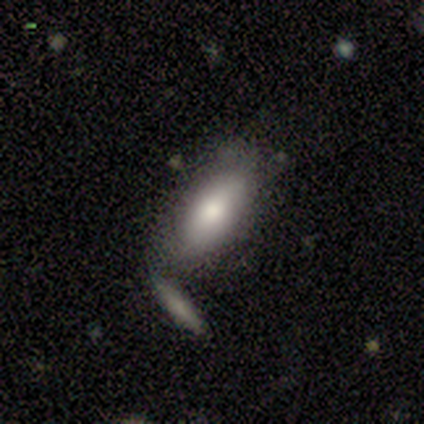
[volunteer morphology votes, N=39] Smooth or featured: smooth — 85% (featured or disk — 10%)
How rounded: in between — 76% (cigar-shaped — 24%)
Merging: none — 62% (merger — 22%)